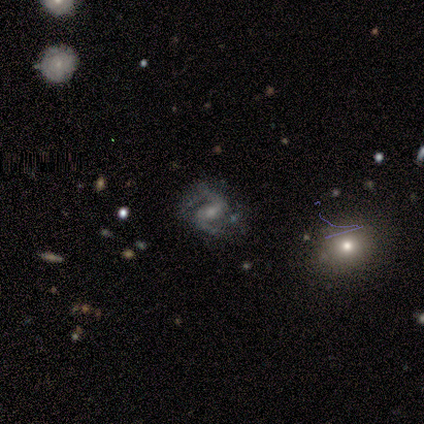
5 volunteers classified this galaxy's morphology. Smooth or featured? featured or disk (80%)
Edge-on disk? no (100%)
Bar? weak (100%)
Spiral arms? yes (100%)
Spiral winding? loose (75%)
Spiral arm count? 2 (75%)
Bulge size? moderate (75%)
Merging? none (40%, tied with minor disturbance)